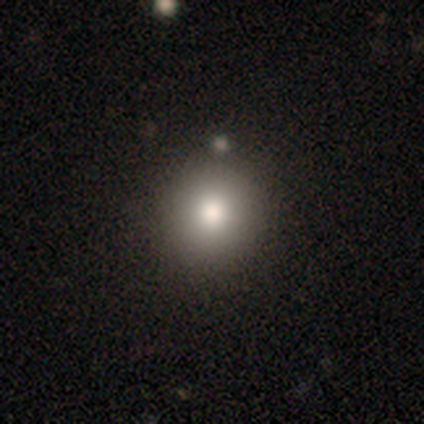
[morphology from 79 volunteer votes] Volunteers were most divided on "merging": none: 48%, minor disturbance: 3%, merger: 2%, major disturbance: 0%. More confident: how rounded — round (89%); smooth or featured — smooth (72%).